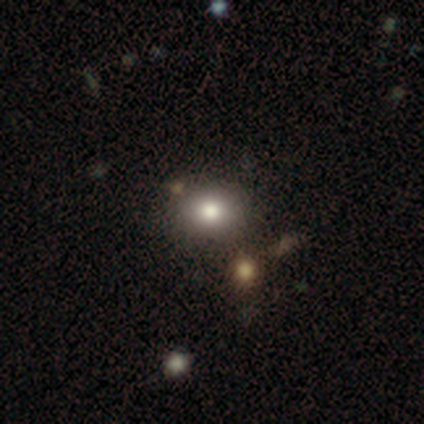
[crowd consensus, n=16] smooth 75%, star or artifact 25%, featured or disk 0%. Down the decision tree: how rounded — round (50%, tied with in between); merging — none (58%).